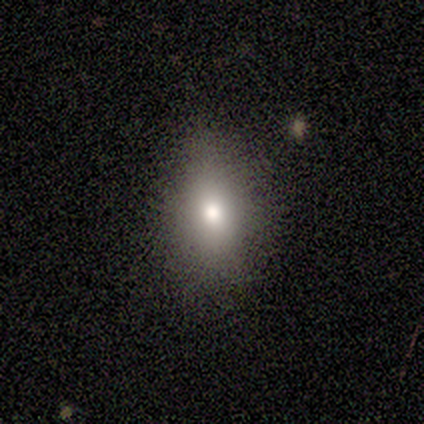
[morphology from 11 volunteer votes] Smooth or featured: smooth — 73% (star or artifact — 18%)
How rounded: in between — 88% (round — 12%)
Merging: none — 89% (major disturbance — 11%)